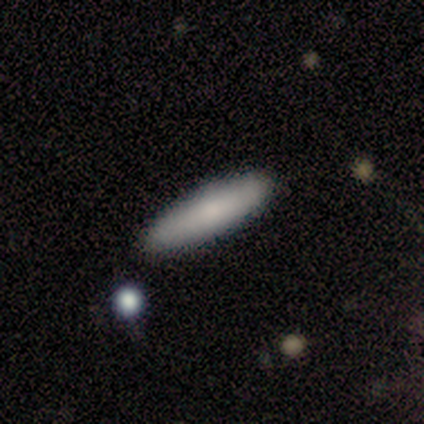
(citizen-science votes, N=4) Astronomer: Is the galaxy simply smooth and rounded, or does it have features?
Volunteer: smooth — 100%.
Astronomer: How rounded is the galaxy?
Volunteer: cigar-shaped — 100%.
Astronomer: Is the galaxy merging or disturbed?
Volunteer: none — 75%.